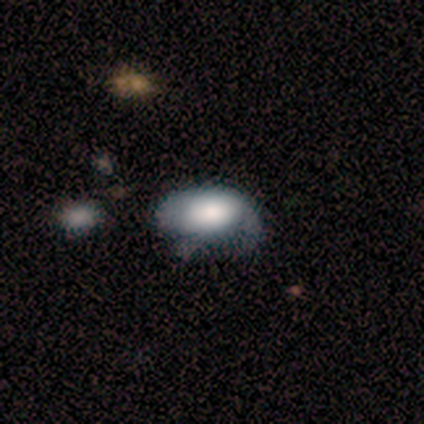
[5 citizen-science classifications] Q: Smooth or featured?
A: featured or disk (60%); runner-up: smooth (40%)
Q: Edge-on disk?
A: no (100%)
Q: Bar?
A: no (100%)
Q: Spiral arms?
A: no (100%)
Q: Bulge size?
A: large (67%); runner-up: none (33%)
Q: Merging?
A: minor disturbance (100%)